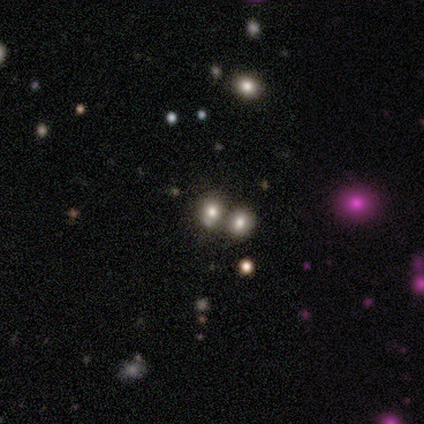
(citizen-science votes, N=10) Smooth or featured: smooth — 60% (star or artifact — 30%)
How rounded: in between — 67% (round — 33%)
Merging: merger — 71% (minor disturbance — 14%)